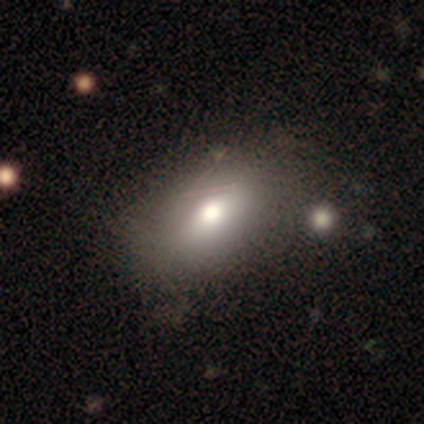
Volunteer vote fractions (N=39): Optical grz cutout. It shows a smooth galaxy with no disk features (74%) that is in between round and cigar-shaped (97%). Merging: none (56%).